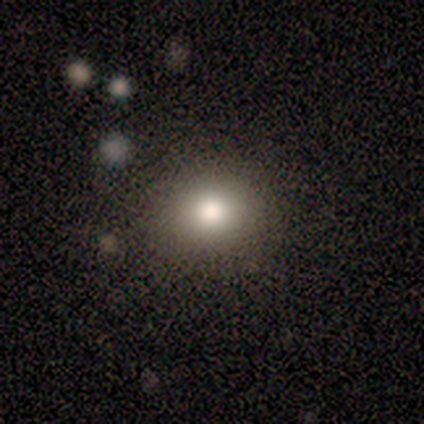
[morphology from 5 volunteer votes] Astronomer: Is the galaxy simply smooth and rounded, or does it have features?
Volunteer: smooth — 80%.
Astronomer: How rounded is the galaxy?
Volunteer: round — 50%, tied with in between at 50%.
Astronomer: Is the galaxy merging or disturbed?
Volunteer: none — 100%.